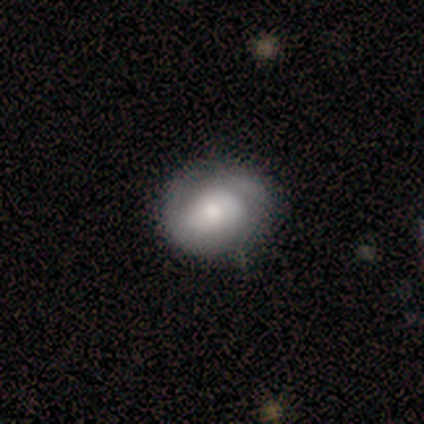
Overall: smooth (65%). How rounded: round (58%; in between 42%). Merging: none (75%).